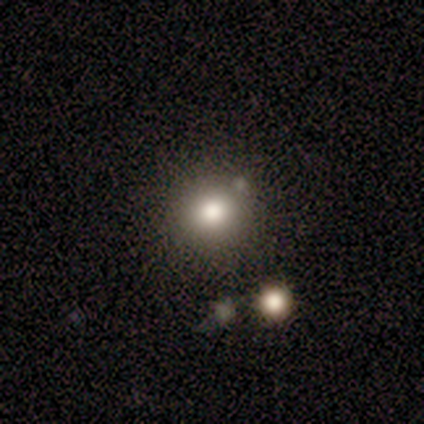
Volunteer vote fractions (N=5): Morphology: type=smooth (60%); roundness=round (67%); merging=none (67%).